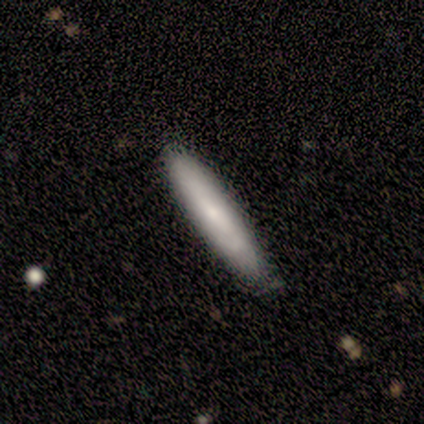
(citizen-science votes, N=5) Smooth or featured?
  - smooth: 100% *
  - featured or disk: 0%
  - star or artifact: 0%
How rounded?
  - cigar-shaped: 80% *
  - in between: 20%
  - round: 0%
Merging?
  - none: 80% *
  - minor disturbance: 20%
  - major disturbance: 0%
  - merger: 0%